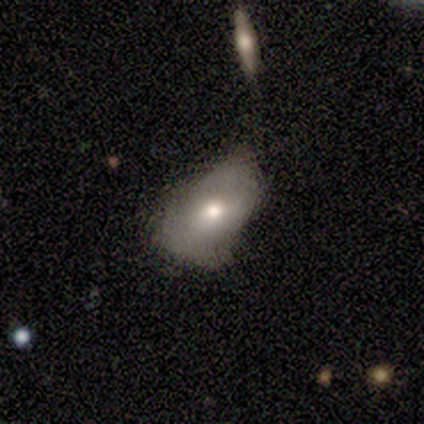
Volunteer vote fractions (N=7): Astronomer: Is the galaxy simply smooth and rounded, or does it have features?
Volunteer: smooth — 86%.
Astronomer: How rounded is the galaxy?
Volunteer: in between — 83%.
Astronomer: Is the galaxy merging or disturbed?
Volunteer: none — 57%.